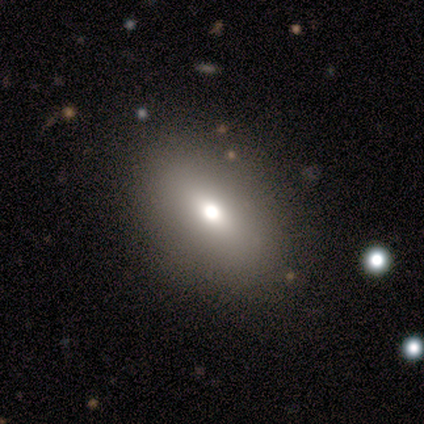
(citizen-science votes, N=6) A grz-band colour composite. It shows a smooth galaxy with no disk features (83%) that is in between round and cigar-shaped (80%). Merging: none (100%).